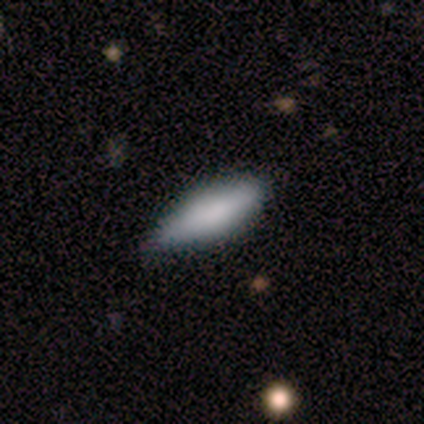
Smooth or featured: smooth — 80% (featured or disk — 20%)
How rounded: in between — 50% (tied with cigar-shaped — 50%)
Merging: none — 60% (minor disturbance — 20%)